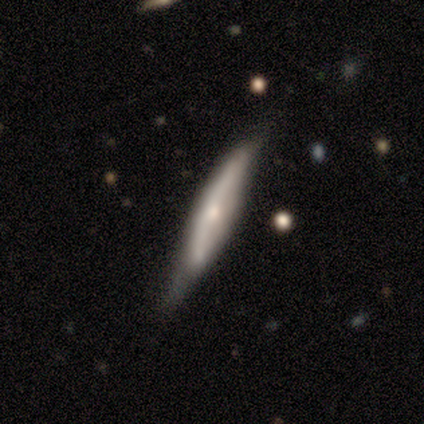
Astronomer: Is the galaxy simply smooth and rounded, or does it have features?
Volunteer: smooth — 75%.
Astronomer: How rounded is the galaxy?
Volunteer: cigar-shaped — 100%.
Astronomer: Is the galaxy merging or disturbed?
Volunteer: none — 75%.